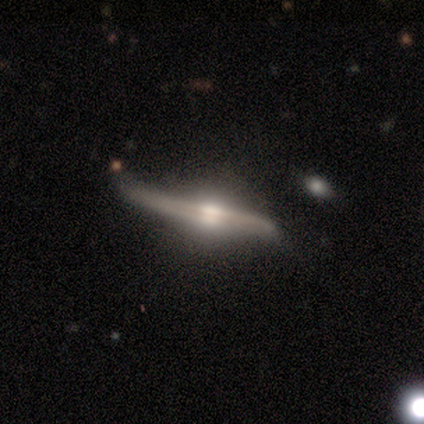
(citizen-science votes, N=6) Smooth or featured?
  - featured or disk: 83% *
  - smooth: 17%
  - star or artifact: 0%
Edge-on disk?
  - yes: 80% *
  - no: 20%
Edge-on bulge?
  - rounded: 100% *
  - boxy: 0%
  - none: 0%
Merging?
  - none: 67% *
  - minor disturbance: 33%
  - major disturbance: 0%
  - merger: 0%